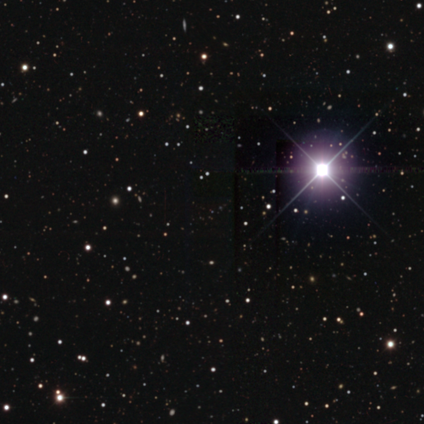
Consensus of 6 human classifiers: This appears to be a star or artifact, not a galaxy (100%).